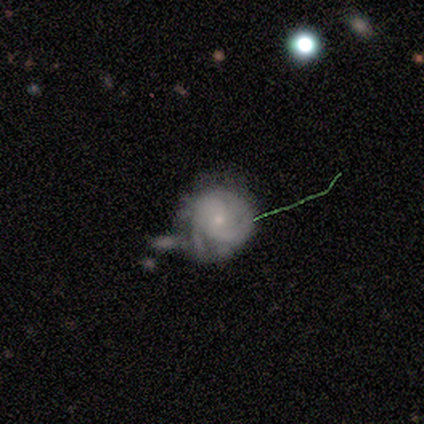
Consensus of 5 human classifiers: Q: Smooth or featured?
A: featured or disk (80%); runner-up: star or artifact (20%)
Q: Edge-on disk?
A: no (100%)
Q: Bar?
A: no (100%)
Q: Spiral arms?
A: yes (50%); tied with: no (50%)
Q: Spiral winding?
A: medium (50%); tied with: loose (50%)
Q: Spiral arm count?
A: 1 (50%); tied with: can't tell (50%)
Q: Bulge size?
A: small (75%); runner-up: moderate (25%)
Q: Merging?
A: major disturbance (50%); runner-up: minor disturbance (25%)